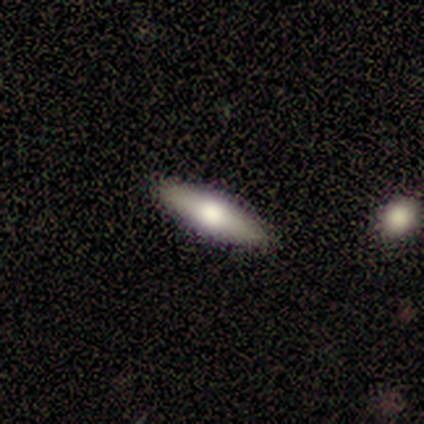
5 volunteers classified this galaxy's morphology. smooth-or-featured: featured or disk: 60% | smooth: 40% | star or artifact: 0%
  disk-edge-on: no: 67% | yes: 33%
    bar: weak: 50% (tied) | no: 50% (tied) | strong: 0%
    has-spiral-arms: no: 100% | yes: 0%
    bulge-size: moderate: 50% (tied) | small: 50% (tied) | dominant: 0% | large: 0% | none: 0%
  merging: none: 100% | minor disturbance: 0% | major disturbance: 0% | merger: 0%